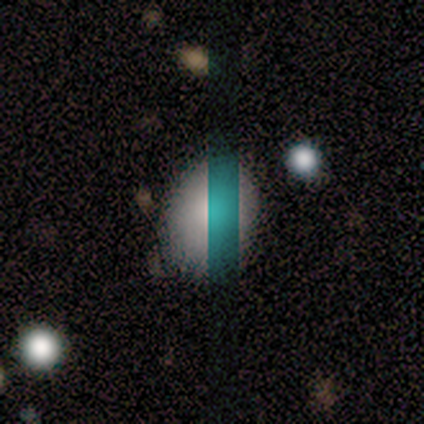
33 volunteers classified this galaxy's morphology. smooth-or-featured: smooth: 70% | star or artifact: 18% | featured or disk: 12%
  how-rounded: in between: 78% | round: 22% | cigar-shaped: 0%
  merging: none: 85% | minor disturbance: 15% | major disturbance: 0% | merger: 0%